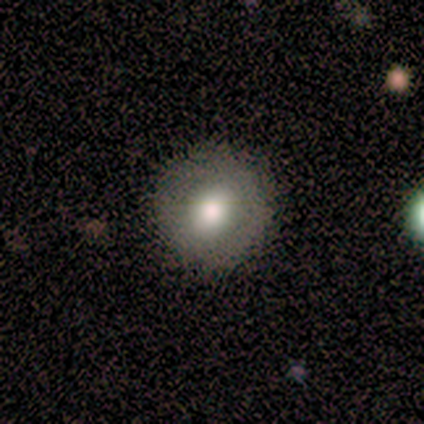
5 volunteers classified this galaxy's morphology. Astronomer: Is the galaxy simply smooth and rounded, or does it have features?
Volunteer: smooth — 100%.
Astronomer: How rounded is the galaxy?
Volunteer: round — 100%.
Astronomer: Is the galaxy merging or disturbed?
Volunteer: none — 100%.